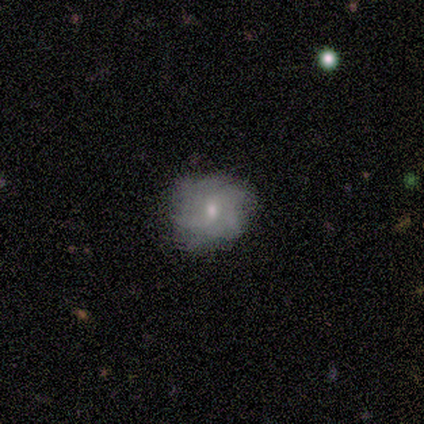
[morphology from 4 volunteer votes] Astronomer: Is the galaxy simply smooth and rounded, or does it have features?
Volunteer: smooth — 50%.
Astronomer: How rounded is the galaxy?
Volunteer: round — 50%, tied with in between at 50%.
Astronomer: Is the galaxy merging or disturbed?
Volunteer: none — 67%.